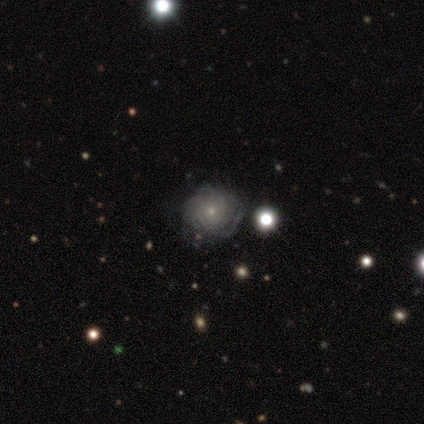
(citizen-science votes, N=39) Smooth or featured: featured or disk — 82% (smooth — 13%)
Edge-on disk: no — 97% (yes — 3%)
Bar: no — 84% (weak — 13%)
Spiral arms: yes — 90% (no — 10%)
Spiral winding: tight — 86% (medium — 7%)
Spiral arm count: can't tell — 71% (more than 4 — 14%)
Bulge size: small — 90% (moderate — 10%)
Merging: none — 73% (minor disturbance — 16%)